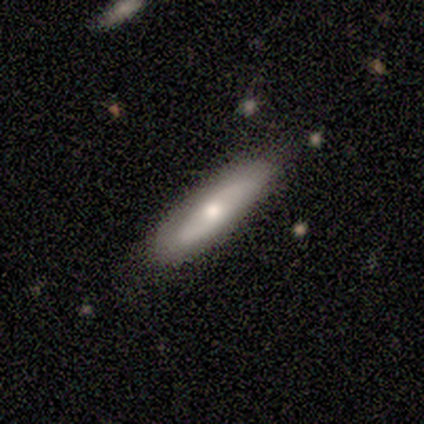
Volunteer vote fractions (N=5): This is likely a smooth galaxy (60%). How rounded: clearly cigar-shaped (100%). Merging: clearly none (80%).